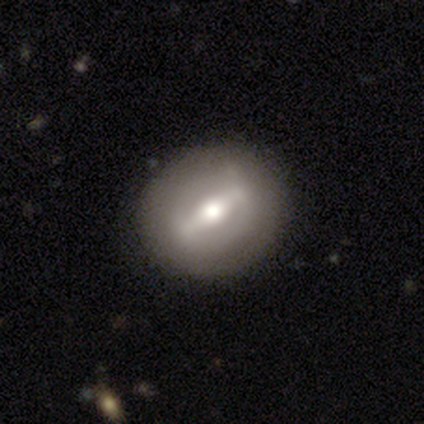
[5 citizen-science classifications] featured or disk 60%, smooth 20%, star or artifact 20%. Down the decision tree: edge-on disk — no (100%); bar — strong (100%); spiral arms — yes (67%); spiral arm count — 2 (100%); spiral winding — tight (100%); bulge size — large (67%); merging — none (100%).